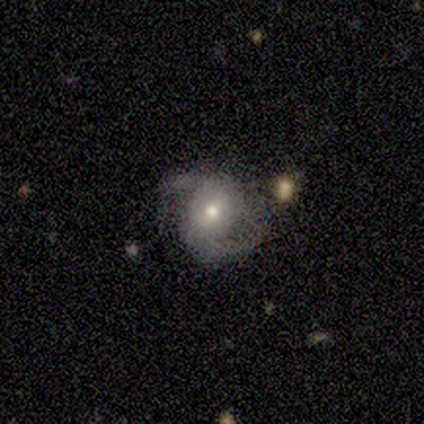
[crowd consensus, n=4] featured or disk 75%, smooth 25%, star or artifact 0%. Down the decision tree: edge-on disk — no (100%); bar — weak (67%); spiral arms — yes (67%); spiral arm count — 2 (100%); spiral winding — medium (50%, tied with loose); bulge size — moderate (100%); merging — major disturbance (50%).